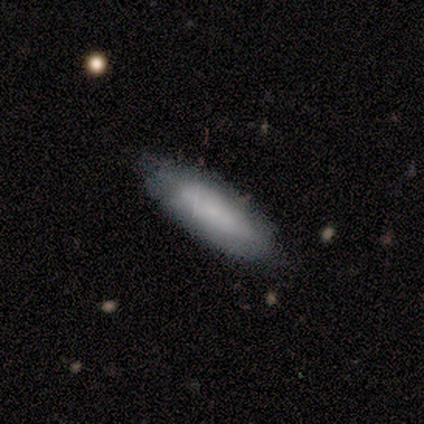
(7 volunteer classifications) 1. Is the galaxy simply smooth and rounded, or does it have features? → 57% smooth, 43% featured or disk, 0% star or artifact.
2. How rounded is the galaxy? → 75% in between, 25% cigar-shaped, 0% round.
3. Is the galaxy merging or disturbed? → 71% none, 29% minor disturbance, 0% major disturbance, 0% merger.